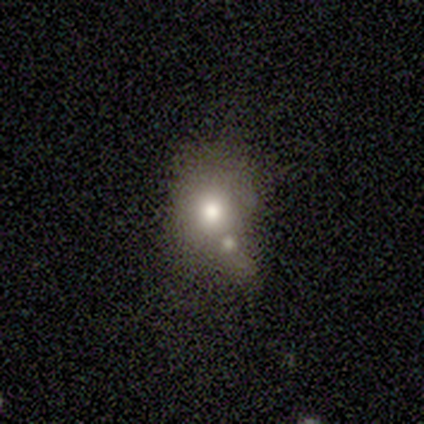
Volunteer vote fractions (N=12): Morphology: type=smooth (50%); roundness=round (67%); merging=minor disturbance (44%).